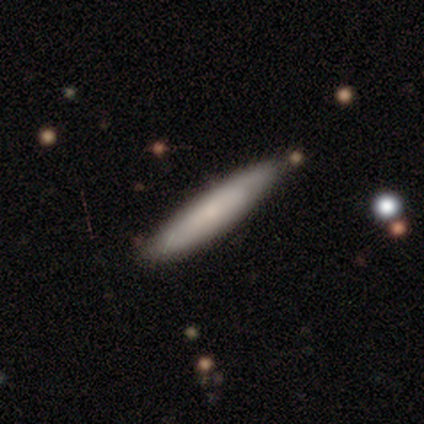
Smooth or featured? 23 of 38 (61%) said smooth. How rounded? 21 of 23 (91%) said cigar-shaped. Merging? 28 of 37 (76%) said none.